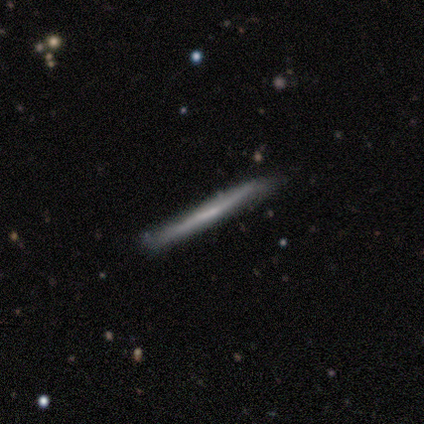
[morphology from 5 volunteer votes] smooth 100%, featured or disk 0%, star or artifact 0%. Down the decision tree: how rounded — cigar-shaped (100%); merging — minor disturbance (60%).